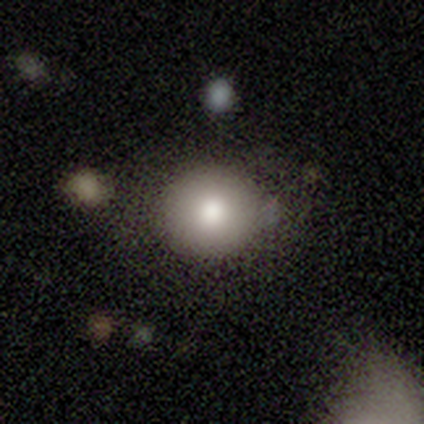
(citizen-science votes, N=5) Overall: smooth (80%). How rounded: round (100%). Merging: none (40%; minor disturbance 20%).